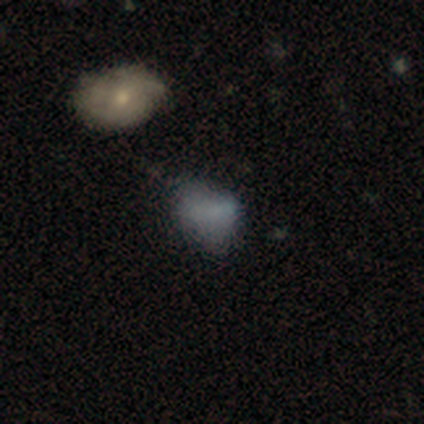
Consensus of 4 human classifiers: Smooth or featured: smooth — 50% (tied with featured or disk — 50%)
How rounded: in between — 100%
Merging: none — 50% (minor disturbance — 25%)